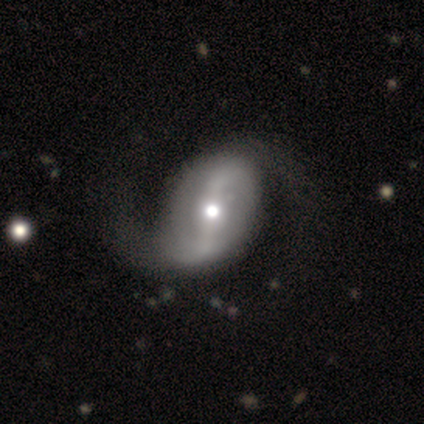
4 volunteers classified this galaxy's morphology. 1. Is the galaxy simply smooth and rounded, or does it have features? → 75% featured or disk, 25% star or artifact, 0% smooth.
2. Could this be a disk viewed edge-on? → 100% no, 0% yes.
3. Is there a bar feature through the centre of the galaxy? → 33% strong (tied), 33% weak (tied), 33% no (tied).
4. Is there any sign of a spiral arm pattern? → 67% yes, 33% no.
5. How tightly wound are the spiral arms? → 50% medium (tied), 50% loose (tied), 0% tight.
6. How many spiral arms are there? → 100% 2, 0% 1, 0% 3, 0% 4, 0% more than 4, 0% can't tell.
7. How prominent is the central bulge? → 100% moderate, 0% dominant, 0% large, 0% small, 0% none.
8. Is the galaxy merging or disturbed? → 67% major disturbance, 33% none, 0% minor disturbance, 0% merger.